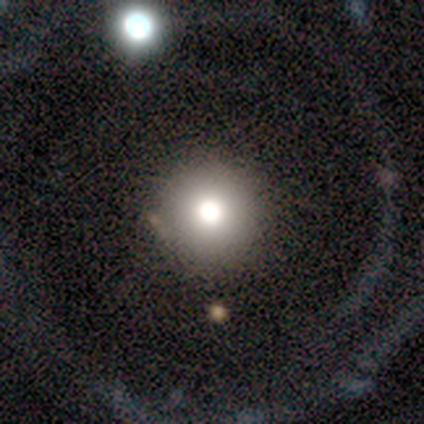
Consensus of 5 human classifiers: Morphology: type=smooth (60%); roundness=round (100%); merging=none (75%).